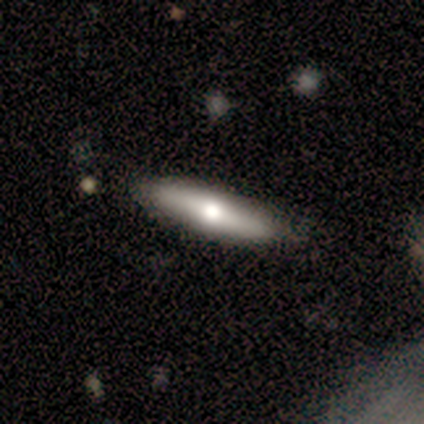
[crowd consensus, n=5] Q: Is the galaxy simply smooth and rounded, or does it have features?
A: featured or disk — 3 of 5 (60%).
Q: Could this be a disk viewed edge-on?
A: yes — 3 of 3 (100%).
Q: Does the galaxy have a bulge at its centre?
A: rounded — 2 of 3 (67%).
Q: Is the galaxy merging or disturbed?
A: none — 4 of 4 (100%).